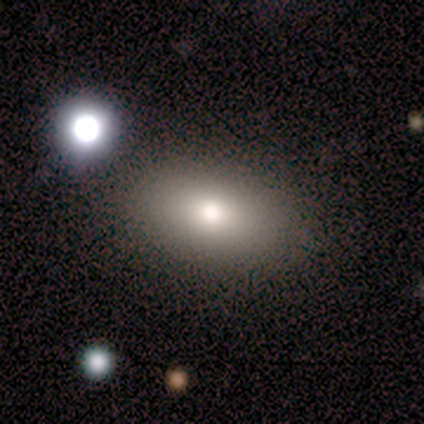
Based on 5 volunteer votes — This is clearly a smooth galaxy (80%). How rounded: clearly in between (100%). Merging: clearly none (80%).